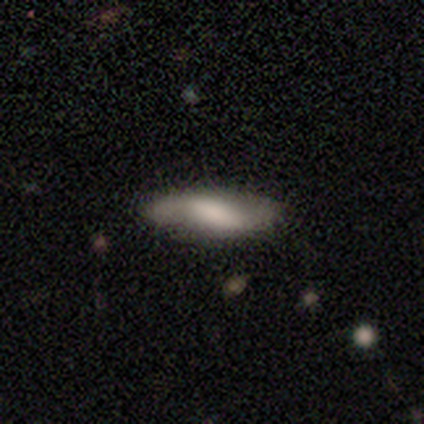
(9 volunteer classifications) Overall: smooth (56%; featured or disk 44%). How rounded: in between (80%). Merging: none (78%).